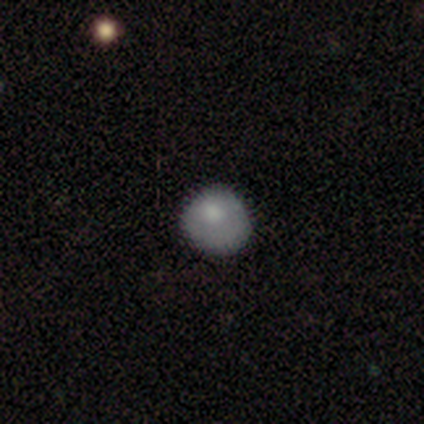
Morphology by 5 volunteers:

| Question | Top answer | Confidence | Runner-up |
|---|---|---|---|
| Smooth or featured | smooth | 80% | featured or disk (20%) |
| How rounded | round | 100% | — |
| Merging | none | 60% | minor disturbance (20%) |